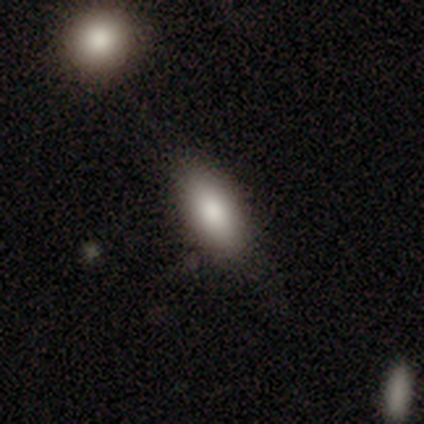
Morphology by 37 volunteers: Smooth or featured?
  - smooth: 81% *
  - featured or disk: 14%
  - star or artifact: 5%
How rounded?
  - in between: 93% *
  - cigar-shaped: 7%
  - round: 0%
Merging?
  - none: 80% *
  - minor disturbance: 14%
  - major disturbance: 6%
  - merger: 0%